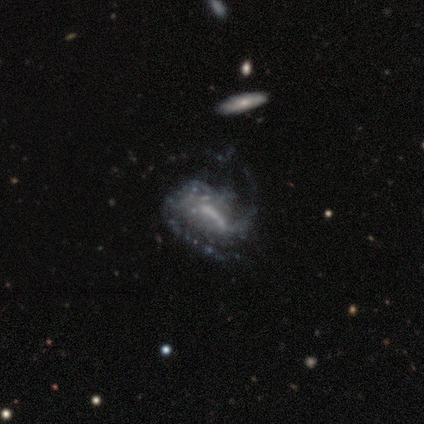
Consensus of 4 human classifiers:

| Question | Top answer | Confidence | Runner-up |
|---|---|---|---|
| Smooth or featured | featured or disk | 100% | — |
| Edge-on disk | no | 100% | — |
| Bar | strong | 75% | no (25%) |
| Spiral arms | yes | 100% | — |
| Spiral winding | medium | 50% | tight (25%) |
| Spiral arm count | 2 | 100% | — |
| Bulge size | none | 50% | large (25%) |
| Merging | major disturbance | 75% | none (25%) |